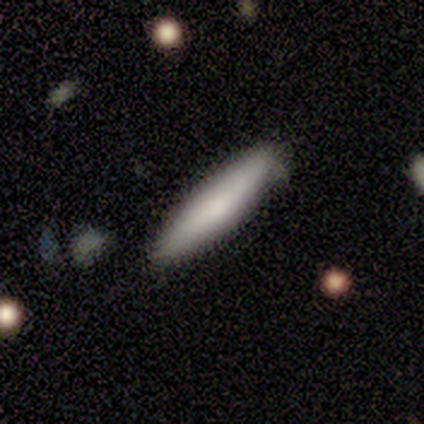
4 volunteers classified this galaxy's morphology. Smooth or featured?
  - smooth: 50% * (tied)
  - featured or disk: 50% * (tied)
  - star or artifact: 0%
How rounded?
  - cigar-shaped: 100% *
  - round: 0%
  - in between: 0%
Merging?
  - none: 100% *
  - minor disturbance: 0%
  - major disturbance: 0%
  - merger: 0%